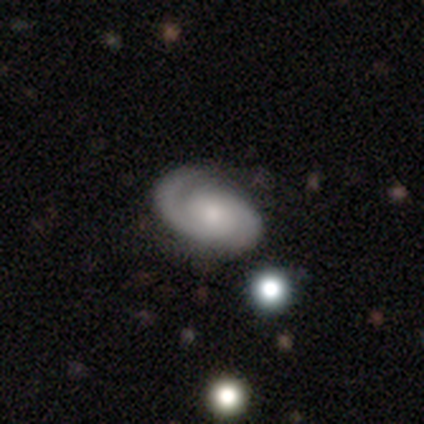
smooth-or-featured: featured or disk: 100% | smooth: 0% | star or artifact: 0%
  disk-edge-on: no: 100% | yes: 0%
    bar: no: 75% | weak: 25% | strong: 0%
    has-spiral-arms: yes: 100% | no: 0%
      spiral-winding: tight: 100% | medium: 0% | loose: 0%
      spiral-arm-count: 2: 75% | 1: 25% | 3: 0% | 4: 0% | more than 4: 0% | can't tell: 0%
    bulge-size: small: 75% | moderate: 25% | dominant: 0% | large: 0% | none: 0%
  merging: none: 100% | minor disturbance: 0% | major disturbance: 0% | merger: 0%